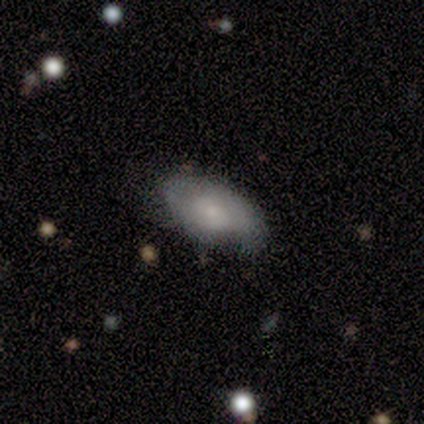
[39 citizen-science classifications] smooth 51%, featured or disk 44%, star or artifact 5%. Down the decision tree: how rounded — in between (95%); merging — none (35%).